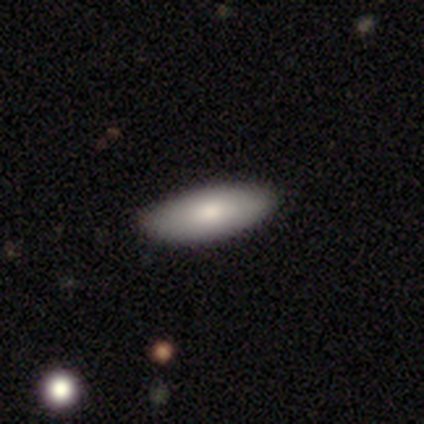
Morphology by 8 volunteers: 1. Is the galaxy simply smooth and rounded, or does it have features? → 88% smooth, 12% star or artifact, 0% featured or disk.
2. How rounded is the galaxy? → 86% in between, 14% cigar-shaped, 0% round.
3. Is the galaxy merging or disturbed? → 100% none, 0% minor disturbance, 0% major disturbance, 0% merger.